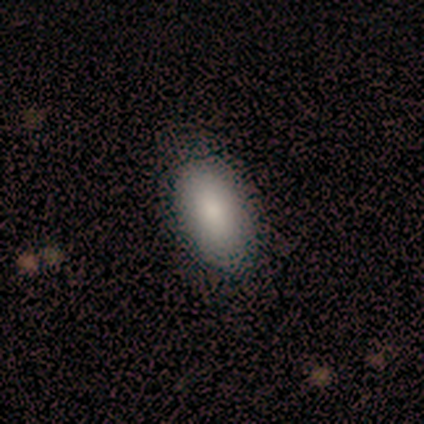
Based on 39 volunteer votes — A smooth galaxy with no disk features (85%) that is in between round and cigar-shaped (91%). Merging: none (86%).